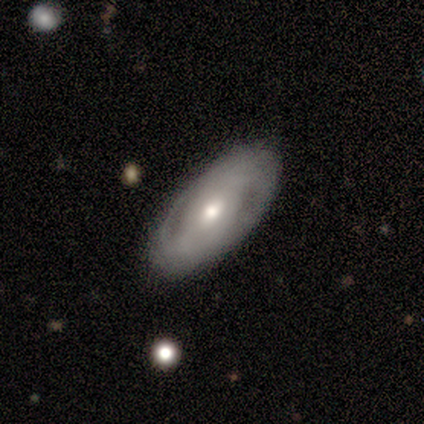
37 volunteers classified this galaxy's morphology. Volunteers were most divided on "bar": no: 41%, strong: 35%, weak: 24%. More confident: merging — none (85%); edge-on disk — no (81%); bulge size — moderate (65%); spiral arm count — 2 (60%); spiral arms — yes (59%); smooth or featured — featured or disk (57%); spiral winding — tight (50%).